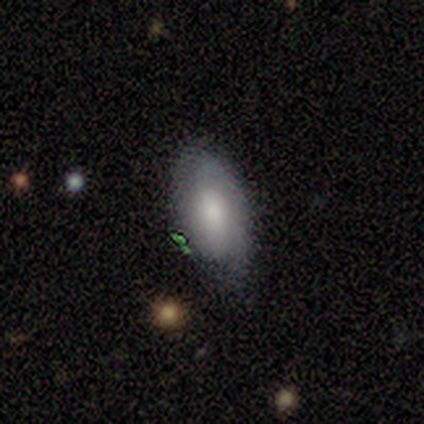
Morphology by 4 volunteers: Smooth or featured? 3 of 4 (75%) said smooth. How rounded? 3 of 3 (100%) said in between. Merging? 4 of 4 (100%) said none.